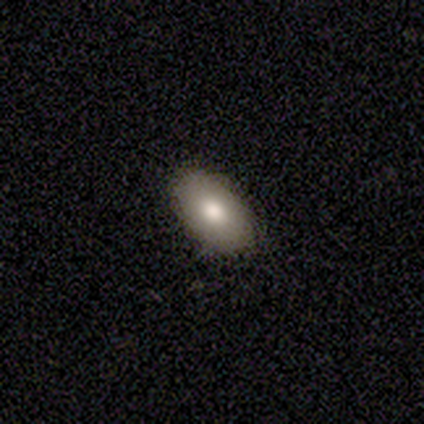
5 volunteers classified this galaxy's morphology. Smooth or featured? 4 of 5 (80%) said smooth. How rounded? 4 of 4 (100%) said in between. Merging? 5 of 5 (100%) said none.